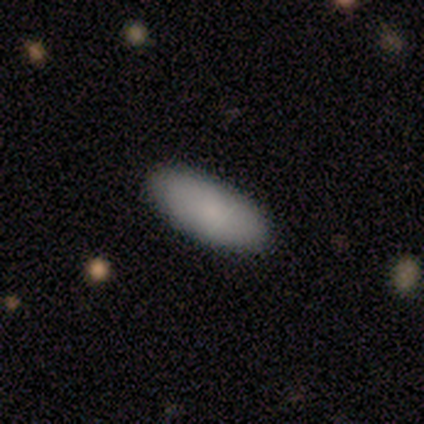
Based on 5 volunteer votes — Smooth or featured: smooth — 100%
How rounded: in between — 80% (cigar-shaped — 20%)
Merging: none — 100%